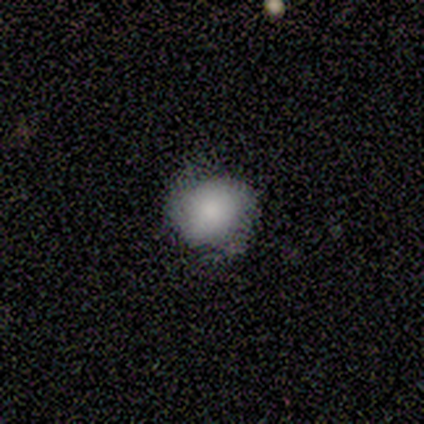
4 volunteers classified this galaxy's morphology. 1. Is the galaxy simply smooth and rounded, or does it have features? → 50% featured or disk, 25% smooth, 25% star or artifact.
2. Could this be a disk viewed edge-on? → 100% no, 0% yes.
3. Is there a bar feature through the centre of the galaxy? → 100% no, 0% strong, 0% weak.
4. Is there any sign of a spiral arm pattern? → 50% yes (tied), 50% no (tied).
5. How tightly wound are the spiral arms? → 100% medium, 0% tight, 0% loose.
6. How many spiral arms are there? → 100% can't tell, 0% 1, 0% 2, 0% 3, 0% 4, 0% more than 4.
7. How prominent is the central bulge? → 50% moderate (tied), 50% none (tied), 0% dominant, 0% large, 0% small.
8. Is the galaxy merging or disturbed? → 67% major disturbance, 33% none, 0% minor disturbance, 0% merger.